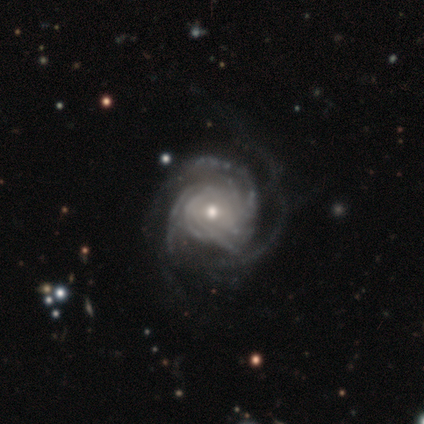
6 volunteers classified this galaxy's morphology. A featured or disk galaxy (100%) with no bar (83%), tight (83%) spiral arms (100%) and a moderate central bulge (67%). Merging: major disturbance (50%).